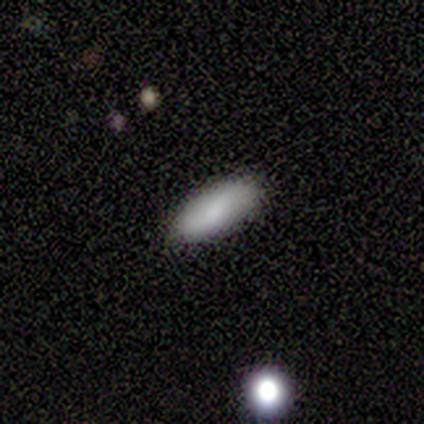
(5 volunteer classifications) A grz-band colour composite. It shows a smooth galaxy with no disk features (100%) that is in between round and cigar-shaped (60%). Merging: none (80%).